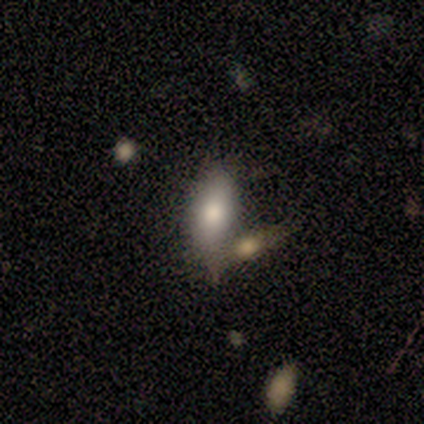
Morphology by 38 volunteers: A smooth galaxy with no disk features (82%) that is in between round and cigar-shaped (74%). Merging: none (55%).